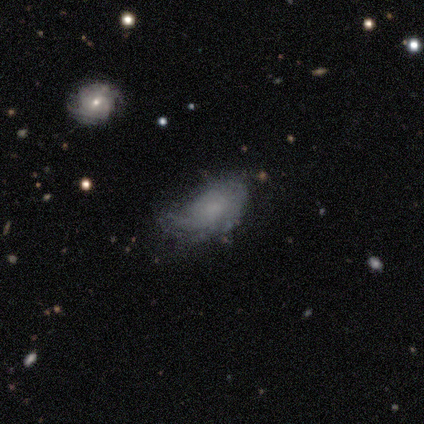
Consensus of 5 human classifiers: Smooth or featured?
  - featured or disk: 80% *
  - smooth: 20%
  - star or artifact: 0%
Edge-on disk?
  - no: 100% *
  - yes: 0%
Bar?
  - no: 75% *
  - weak: 25%
  - strong: 0%
Spiral arms?
  - yes: 50% * (tied)
  - no: 50% * (tied)
Spiral winding?
  - loose: 100% *
  - tight: 0%
  - medium: 0%
Spiral arm count?
  - 1: 50% * (tied)
  - 2: 50% * (tied)
  - 3: 0%
  - 4: 0%
  - more than 4: 0%
  - can't tell: 0%
Bulge size?
  - none: 75% *
  - moderate: 25%
  - dominant: 0%
  - large: 0%
  - small: 0%
Merging?
  - major disturbance: 60% *
  - none: 40%
  - minor disturbance: 0%
  - merger: 0%